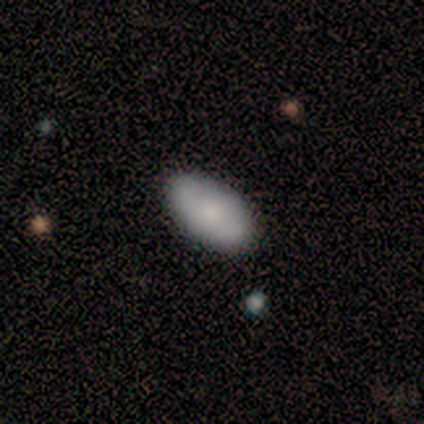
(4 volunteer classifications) smooth-or-featured: smooth: 75% | featured or disk: 25% | star or artifact: 0%
  how-rounded: in between: 100% | round: 0% | cigar-shaped: 0%
  merging: none: 75% | minor disturbance: 25% | major disturbance: 0% | merger: 0%